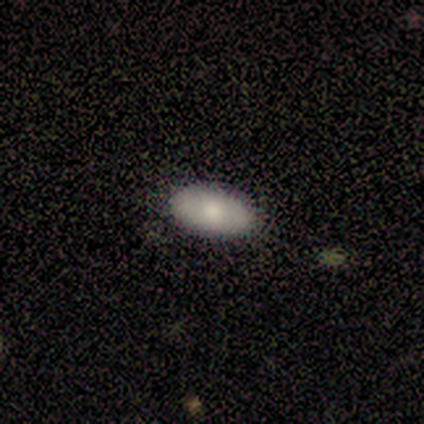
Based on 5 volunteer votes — A smooth galaxy with no disk features (60%) that is in between round and cigar-shaped (100%).

Vote fractions:
- Smooth or featured? smooth: 60% / featured or disk: 20% / star or artifact: 20%
- How rounded? in between: 100% / round: 0% / cigar-shaped: 0%
- Merging? none: 100% / minor disturbance: 0% / major disturbance: 0% / merger: 0%